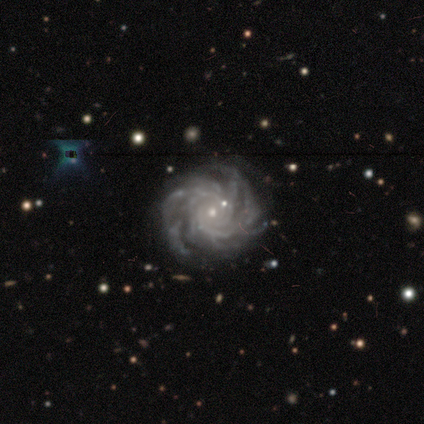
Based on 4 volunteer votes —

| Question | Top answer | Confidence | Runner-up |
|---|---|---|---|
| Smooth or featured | featured or disk | 75% | star or artifact (25%) |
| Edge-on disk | no | 100% | — |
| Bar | strong | 33% | tied: weak (33%), no (33%) |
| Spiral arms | yes | 100% | — |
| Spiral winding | tight | 100% | — |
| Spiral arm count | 3 | 33% | tied: 4 (33%), more than 4 (33%) |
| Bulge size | small | 100% | — |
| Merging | minor disturbance | 67% | none (33%) |